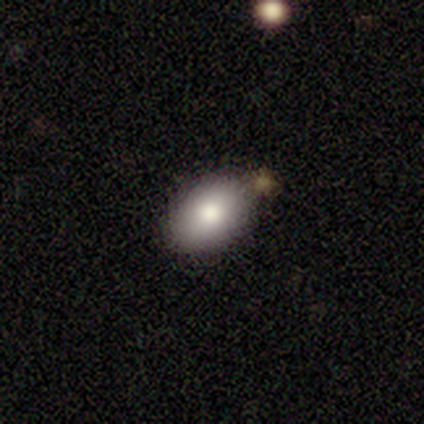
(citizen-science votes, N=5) Overall: smooth (80%). How rounded: in between (100%). Merging: none (80%).